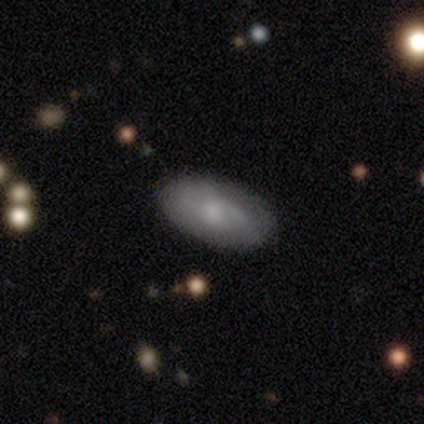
Morphology: type=smooth (52%); roundness=in between (100%); merging=none (70%).